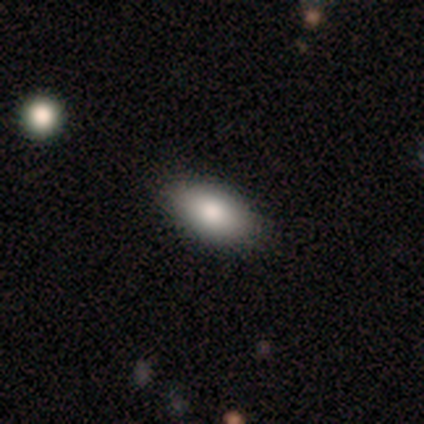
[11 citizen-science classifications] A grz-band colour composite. It shows a smooth galaxy with no disk features (82%) that is in between round and cigar-shaped (100%). Merging: none (91%).